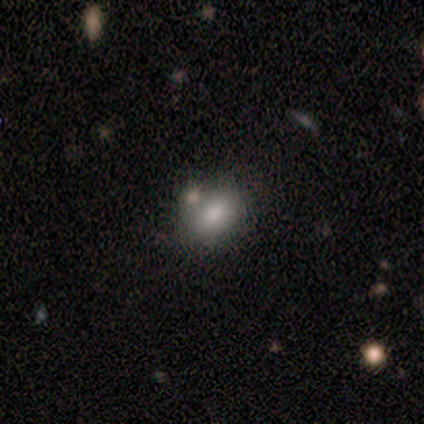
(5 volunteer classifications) A smooth galaxy with no disk features (100%) that is in between round and cigar-shaped (80%). Merging: none (100%).